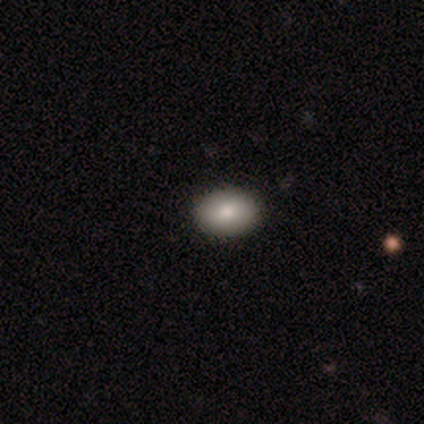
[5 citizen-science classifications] Morphology: type=smooth (80%); roundness=round (50%, tied with in between); merging=none (100%).